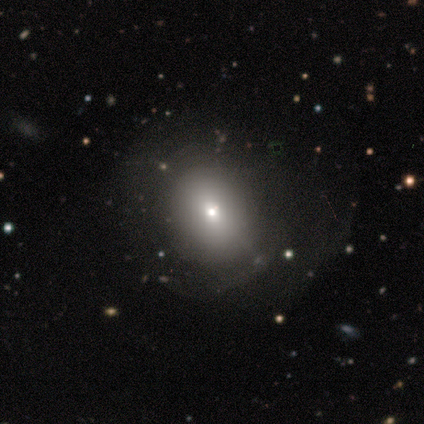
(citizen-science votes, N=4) Morphology: type=smooth (75%); roundness=round (100%); merging=none (33%, tied with minor disturbance and major disturbance).